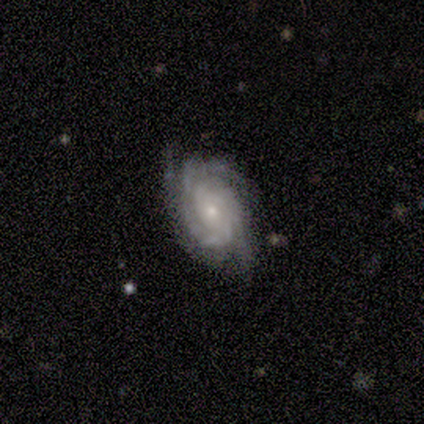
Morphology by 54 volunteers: This is clearly a featured or disk galaxy (89%). It is clearly not viewed edge-on (100%). Bar: likely no (77%). Spiral arm pattern: clearly yes (100%). Spiral arm count: marginally 3 (44%). Spiral winding: likely tight (69%). Central bulge: likely small (69%). Merging: likely none (71%).